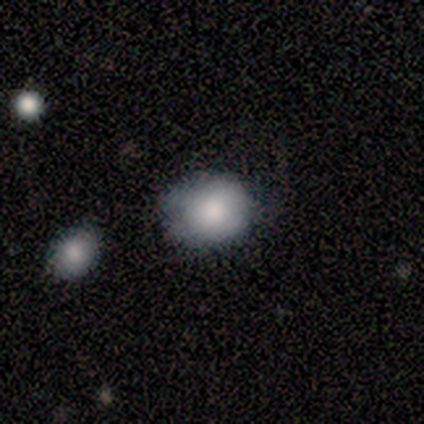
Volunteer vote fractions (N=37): smooth_or_featured: smooth (p=0.76) [alt: star or artifact p=0.19]
how_rounded: round (p=0.68) [alt: in between p=0.32]
merging: none (p=0.63) [alt: minor disturbance p=0.27]